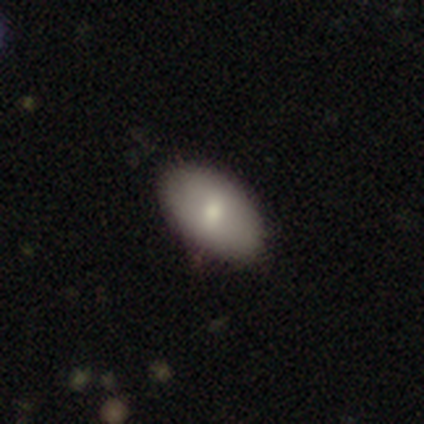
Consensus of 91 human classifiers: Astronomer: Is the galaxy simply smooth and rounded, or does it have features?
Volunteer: smooth — 78%.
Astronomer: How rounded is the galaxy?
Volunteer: in between — 97%.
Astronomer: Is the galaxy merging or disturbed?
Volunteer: none — 84%.